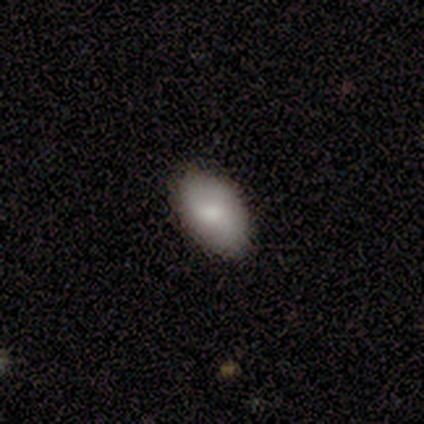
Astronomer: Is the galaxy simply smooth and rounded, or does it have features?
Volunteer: smooth — 83%.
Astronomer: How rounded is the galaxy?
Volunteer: in between — 90%.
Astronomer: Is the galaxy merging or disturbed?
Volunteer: none — 90%.